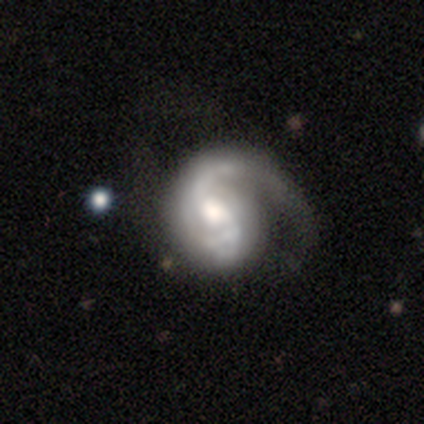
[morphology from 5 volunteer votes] This is clearly a featured or disk galaxy (100%). It is clearly not viewed edge-on (100%). Bar: likely no (60%). Spiral arm pattern: clearly yes (100%). Spiral arm count: likely 2 (60%). Spiral winding: marginally medium (40%, tied with loose). Central bulge: likely moderate (60%). Merging: likely none (60%).